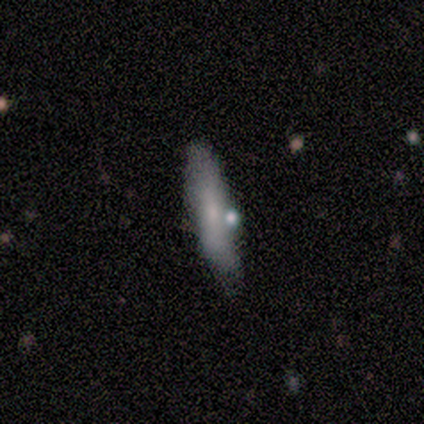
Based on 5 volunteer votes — Smooth or featured? 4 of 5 (80%) said smooth. How rounded? 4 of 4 (100%) said cigar-shaped. Merging? 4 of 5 (80%) said none.